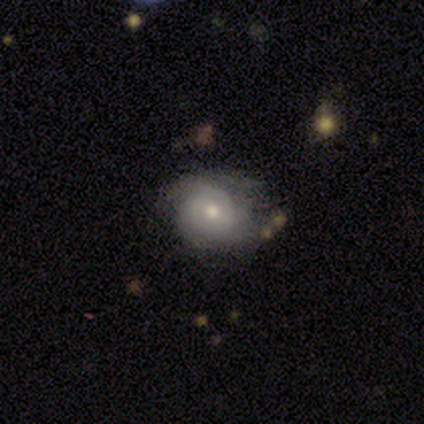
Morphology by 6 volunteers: Overall: featured or disk (67%). Edge-on disk: no (100%). Bar: weak (75%). Spiral arms: yes (75%). Spiral arm count: 2 (33%, tied with 3 and can't tell). Spiral winding: tight (67%; medium 33%). Bulge size: moderate (50%, tied with small). Merging: minor disturbance (60%; none 40%).